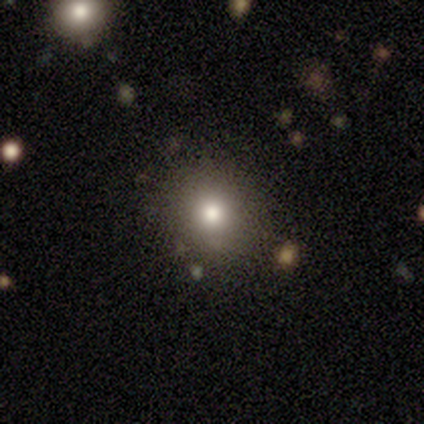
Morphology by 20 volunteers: type=smooth (75%); roundness=round (73%); merging=none (100%).